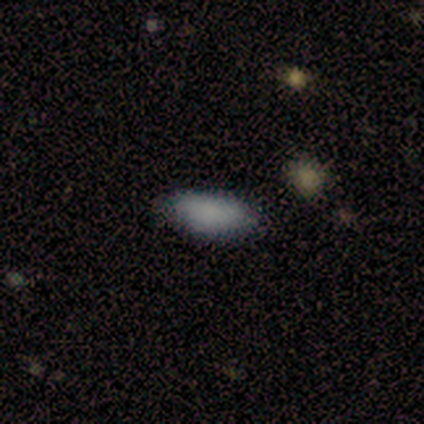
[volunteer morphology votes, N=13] This appears to be a smooth galaxy with no disk features (92%) that is in between round and cigar-shaped (92%). Merging: none (83%).